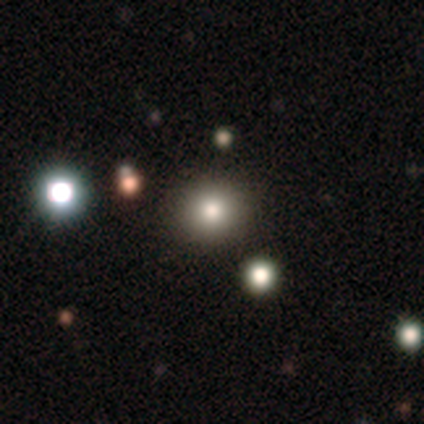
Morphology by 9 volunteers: type=smooth (67%); roundness=round (100%); merging=none (100%).